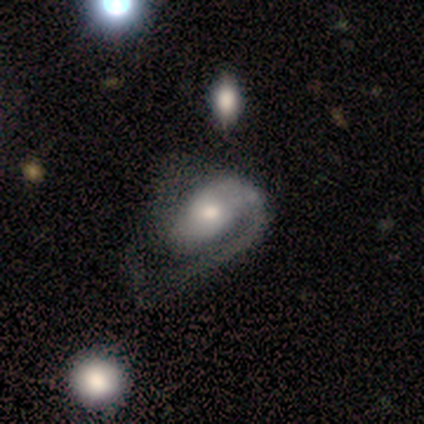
A featured or disk galaxy (69%) with no bar (74%), 1 (54%) loose (50%) spiral arms (89%) and a moderate central bulge (74%).

Vote fractions:
- Smooth or featured? featured or disk: 69% / smooth: 26% / star or artifact: 5%
- Edge-on disk? no: 100% / yes: 0%
- Bar? no: 74% / weak: 22% / strong: 4%
- Spiral arms? yes: 89% / no: 11%
- Spiral winding? loose: 50% / medium: 29% / tight: 21%
- Spiral arm count? 1: 54% / 2: 38% / 3: 4% / can't tell: 4% / 4: 0% / more than 4: 0%
- Bulge size? moderate: 74% / small: 15% / large: 11% / dominant: 0% / none: 0%
- Merging? major disturbance: 51% / none: 5% / minor disturbance: 5% / merger: 3%